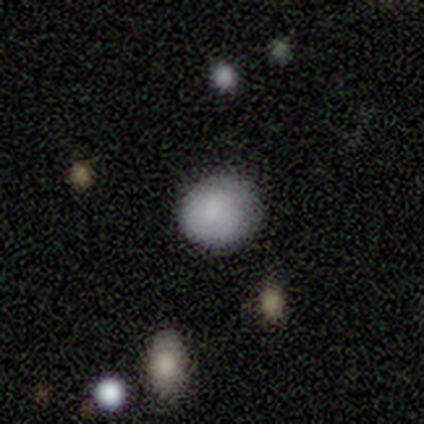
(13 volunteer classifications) Smooth or featured? 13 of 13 (100%) said smooth. How rounded? 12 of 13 (92%) said round. Merging? 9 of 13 (69%) said none.